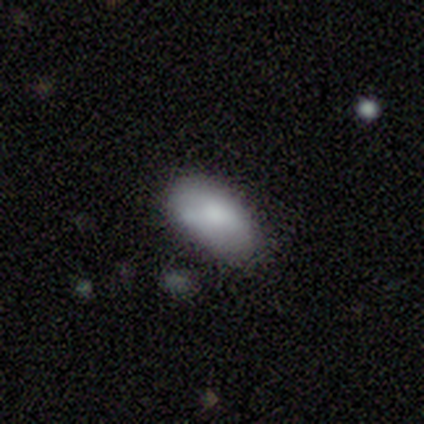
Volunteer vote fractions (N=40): smooth 82%, featured or disk 10%, star or artifact 8%. Down the decision tree: how rounded — in between (85%); merging — none (70%).